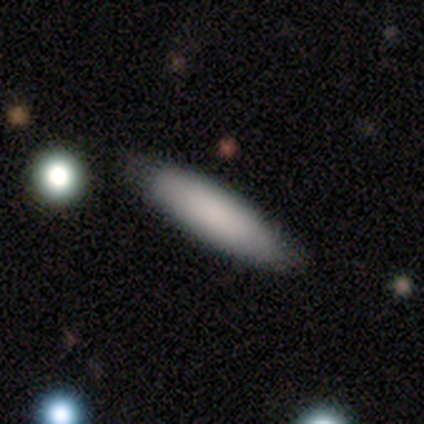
smooth-or-featured: smooth: 88% | featured or disk: 12% | star or artifact: 0%
  how-rounded: in between: 71% | cigar-shaped: 29% | round: 0%
  merging: none: 75% | minor disturbance: 12% | major disturbance: 12% | merger: 0%